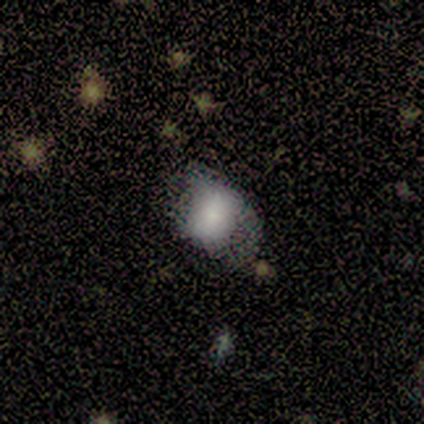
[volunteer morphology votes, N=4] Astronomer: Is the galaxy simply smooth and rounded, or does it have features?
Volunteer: smooth — 100%.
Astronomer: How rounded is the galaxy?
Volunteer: in between — 75%.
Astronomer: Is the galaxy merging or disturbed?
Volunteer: minor disturbance — 50%.